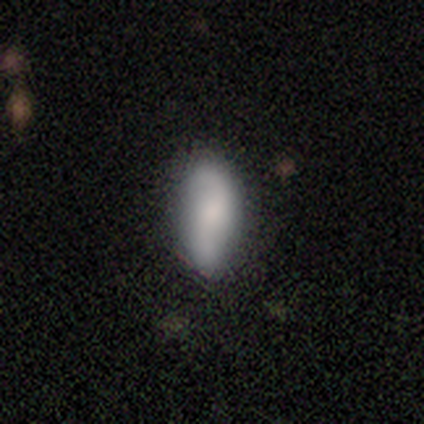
Q: Smooth or featured?
A: smooth (64%); runner-up: featured or disk (31%)
Q: How rounded?
A: in between (76%); runner-up: cigar-shaped (24%)
Q: Merging?
A: none (73%); runner-up: minor disturbance (19%)